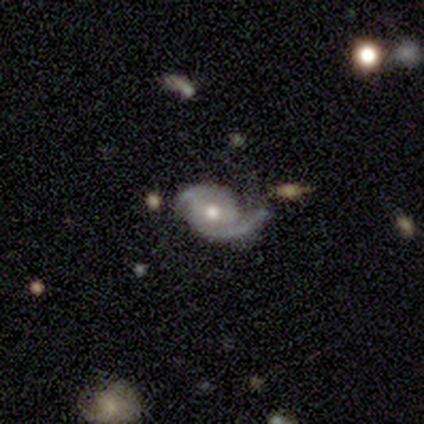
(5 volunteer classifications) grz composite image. It shows a featured or disk galaxy (100%) with no bar (60%), 2 (60%) tight (40%, tied with loose) spiral arms (100%) and a moderate central bulge (80%). Merging: none (80%).